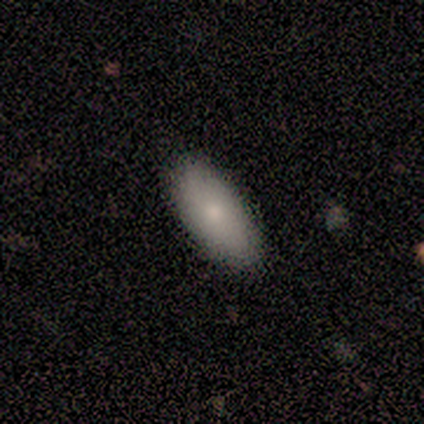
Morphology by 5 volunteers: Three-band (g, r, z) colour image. It shows a smooth galaxy with no disk features (100%) that is in between round and cigar-shaped (100%). Merging: none (60%).